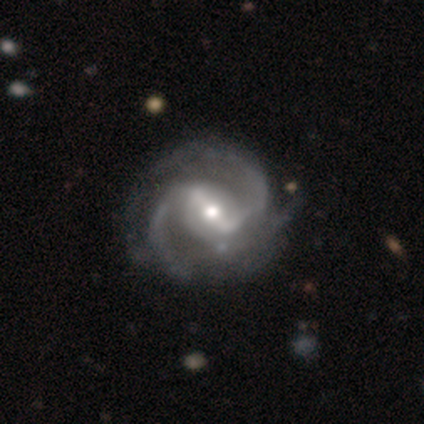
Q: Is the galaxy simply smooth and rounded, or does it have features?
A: featured or disk — 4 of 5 (80%).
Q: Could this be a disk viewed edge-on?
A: no — 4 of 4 (100%).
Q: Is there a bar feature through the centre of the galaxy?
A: strong — 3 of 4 (75%).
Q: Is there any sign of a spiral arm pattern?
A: yes — 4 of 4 (100%).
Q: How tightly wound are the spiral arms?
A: medium — 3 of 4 (75%).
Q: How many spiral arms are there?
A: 2 — 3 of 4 (75%).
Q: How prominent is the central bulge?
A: moderate — 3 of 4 (75%).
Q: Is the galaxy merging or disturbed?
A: minor disturbance — 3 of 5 (60%).